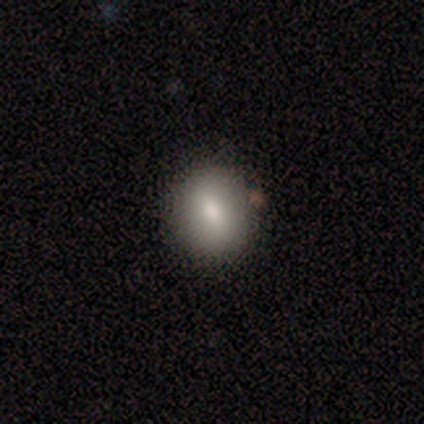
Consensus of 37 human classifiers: smooth_or_featured: smooth (p=0.81) [alt: star or artifact p=0.11]
how_rounded: round (p=0.67) [alt: in between p=0.33]
merging: none (p=0.79) [alt: minor disturbance p=0.12]